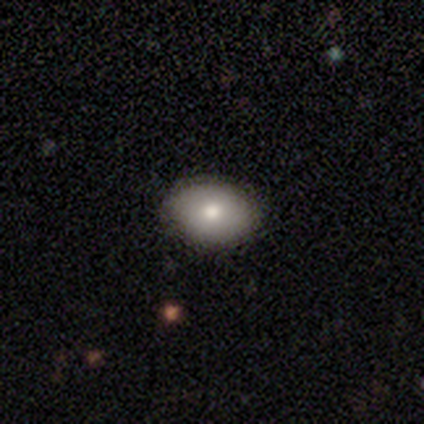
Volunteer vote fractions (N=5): This is likely a smooth galaxy (60%). How rounded: likely round (67%). Merging: clearly none (100%).